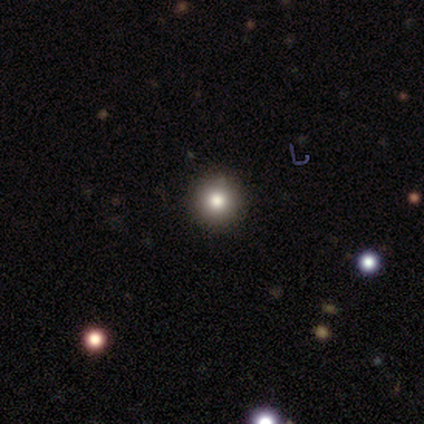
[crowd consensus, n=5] Overall: smooth (60%; featured or disk 20%). How rounded: round (100%). Merging: none (100%).